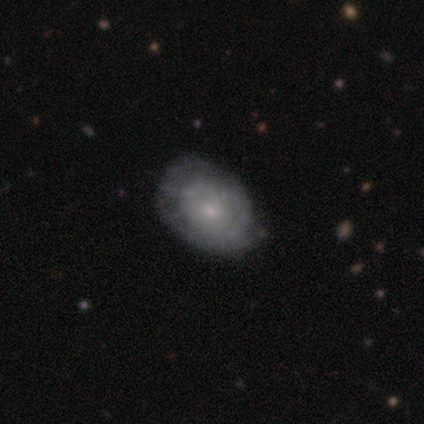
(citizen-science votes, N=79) Smooth or featured?
  - featured or disk: 57% *
  - smooth: 37%
  - star or artifact: 6%
Edge-on disk?
  - no: 98% *
  - yes: 2%
Bar?
  - no: 91% *
  - weak: 7%
  - strong: 2%
Spiral arms?
  - yes: 52% *
  - no: 48%
Spiral winding?
  - tight: 70% *
  - medium: 22%
  - loose: 9%
Spiral arm count?
  - can't tell: 70% *
  - 2: 22%
  - 1: 9%
  - 3: 0%
  - 4: 0%
  - more than 4: 0%
Bulge size?
  - small: 61% *
  - moderate: 30%
  - none: 7%
  - large: 2%
  - dominant: 0%
Merging?
  - none: 27% *
  - minor disturbance: 19%
  - major disturbance: 5%
  - merger: 1%